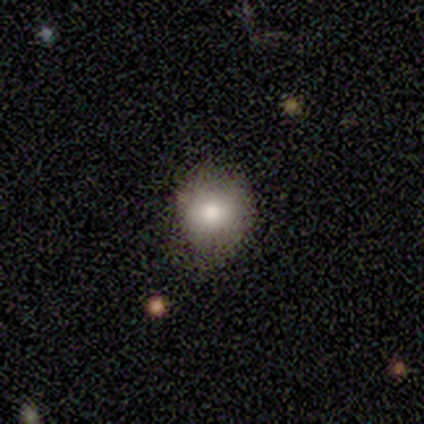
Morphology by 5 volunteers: type=smooth (100%); roundness=round (60%); merging=none (60%).